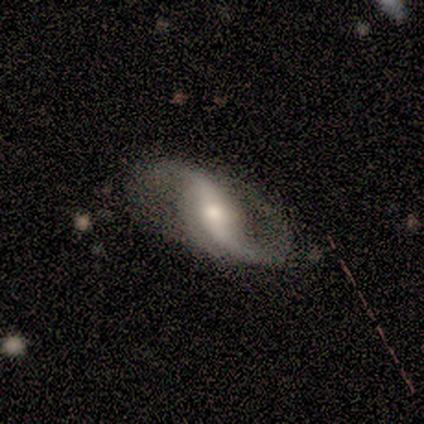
A featured or disk galaxy (100%) with a strong bar (40%, tied with no), 2 (100%) loose (100%) spiral arms (100%) and a large central bulge (60%).

Vote fractions:
- Smooth or featured? featured or disk: 100% / smooth: 0% / star or artifact: 0%
- Edge-on disk? no: 100% / yes: 0%
- Bar? strong: 40% (tied) / no: 40% (tied) / weak: 20%
- Spiral arms? yes: 100% / no: 0%
- Spiral winding? loose: 100% / tight: 0% / medium: 0%
- Spiral arm count? 2: 100% / 1: 0% / 3: 0% / 4: 0% / more than 4: 0% / can't tell: 0%
- Bulge size? large: 60% / small: 40% / dominant: 0% / moderate: 0% / none: 0%
- Merging? minor disturbance: 60% / none: 40% / major disturbance: 0% / merger: 0%